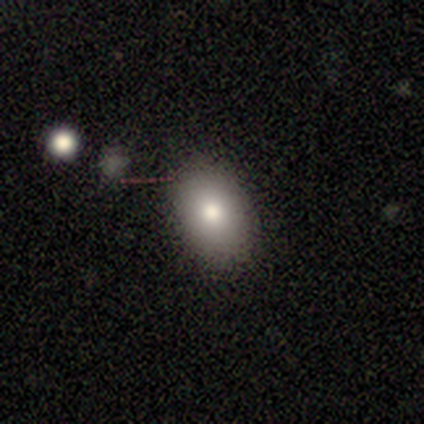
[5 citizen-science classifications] This is clearly a smooth galaxy (100%). How rounded: clearly in between (100%). Merging: clearly none (80%).